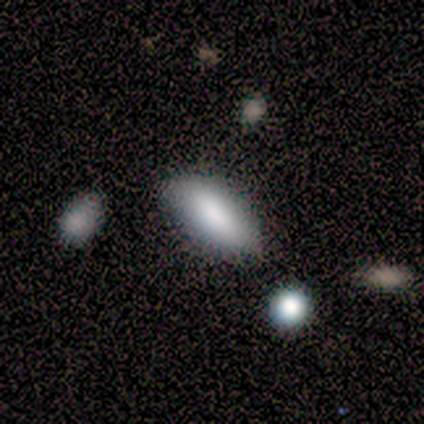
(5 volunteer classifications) This appears to be a smooth galaxy with no disk features (100%) that is in between round and cigar-shaped (60%). Merging: none (80%).